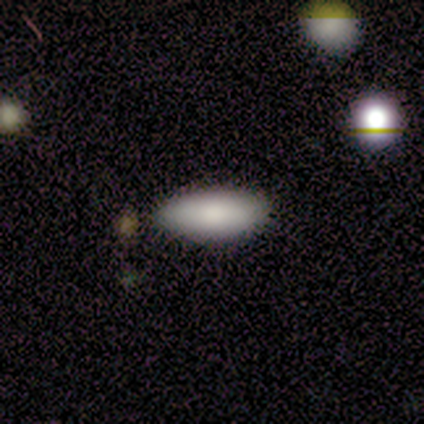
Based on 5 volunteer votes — Smooth or featured? 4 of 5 (80%) said smooth. How rounded? 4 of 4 (100%) said in between. Merging? 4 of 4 (100%) said none.